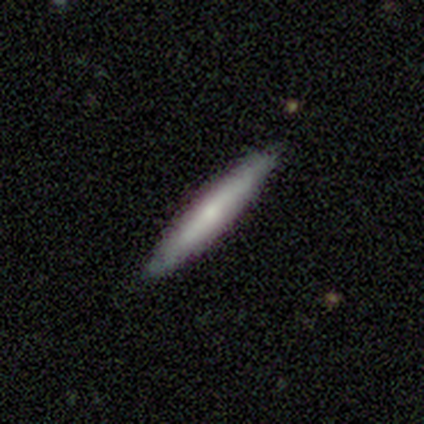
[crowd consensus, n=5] This is clearly a smooth galaxy (100%). How rounded: clearly cigar-shaped (100%). Merging: clearly none (100%).